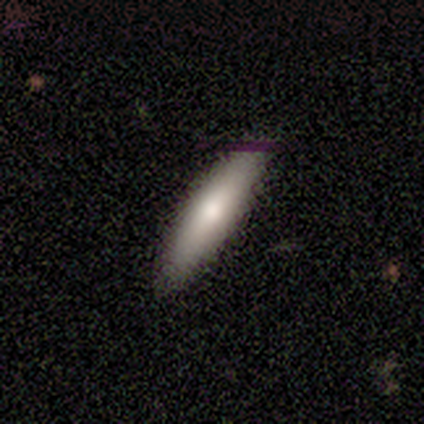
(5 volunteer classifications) smooth_or_featured: smooth (p=0.60) [alt: featured or disk p=0.40]
how_rounded: cigar-shaped (p=1.00)
merging: none (p=0.80) [alt: minor disturbance p=0.20]